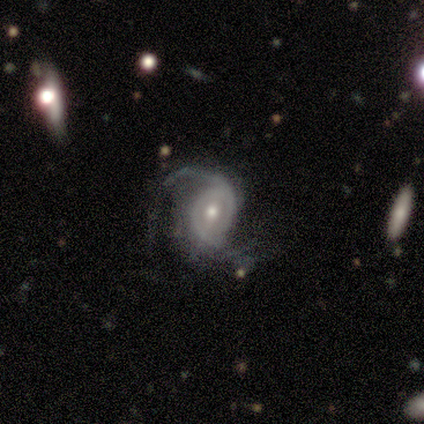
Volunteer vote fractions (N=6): Q: Smooth or featured?
A: featured or disk (83%); runner-up: smooth (17%)
Q: Edge-on disk?
A: no (100%)
Q: Bar?
A: no (100%)
Q: Spiral arms?
A: yes (100%)
Q: Spiral winding?
A: loose (60%); runner-up: tight (20%)
Q: Spiral arm count?
A: 2 (100%)
Q: Bulge size?
A: moderate (60%); runner-up: small (40%)
Q: Merging?
A: none (50%); runner-up: minor disturbance (33%)